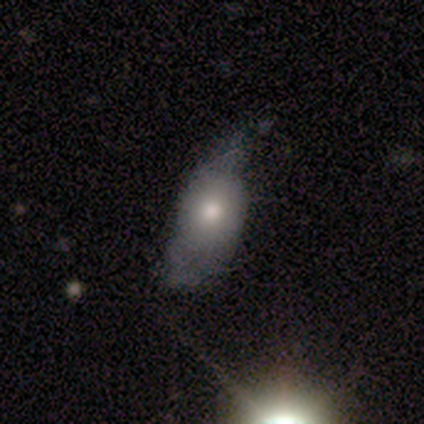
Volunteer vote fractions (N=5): A smooth galaxy with no disk features (80%) that is in between round and cigar-shaped (75%).

Vote fractions:
- Smooth or featured? smooth: 80% / star or artifact: 20% / featured or disk: 0%
- How rounded? in between: 75% / round: 25% / cigar-shaped: 0%
- Merging? major disturbance: 50% / none: 25% / merger: 25% / minor disturbance: 0%